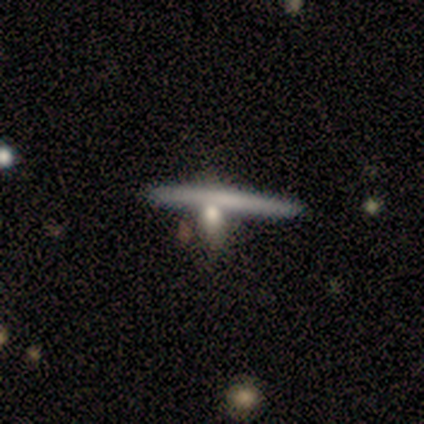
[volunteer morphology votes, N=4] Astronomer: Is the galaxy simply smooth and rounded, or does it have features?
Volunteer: smooth — 75%.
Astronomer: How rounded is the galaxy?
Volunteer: cigar-shaped — 67%.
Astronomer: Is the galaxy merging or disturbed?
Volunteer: merger — 50%.